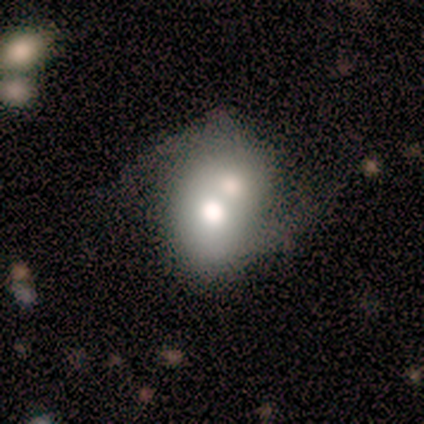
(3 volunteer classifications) Q: Smooth or featured?
A: featured or disk (67%); runner-up: star or artifact (33%)
Q: Edge-on disk?
A: no (100%)
Q: Bar?
A: no (100%)
Q: Spiral arms?
A: yes (50%); tied with: no (50%)
Q: Spiral winding?
A: loose (100%)
Q: Spiral arm count?
A: 2 (100%)
Q: Bulge size?
A: large (50%); tied with: moderate (50%)
Q: Merging?
A: none (50%); tied with: minor disturbance (50%)